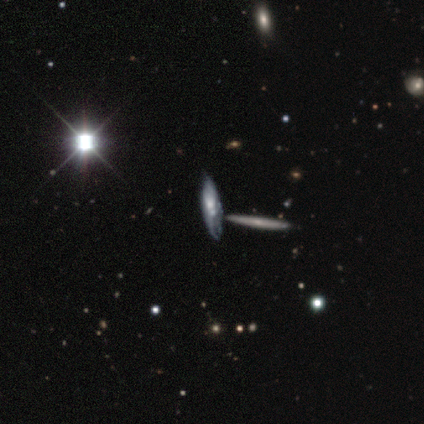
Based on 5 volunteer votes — Morphology: type=featured or disk (80%); edge-on=yes (75%); edge-on bulge=rounded (67%); merging=none (100%).